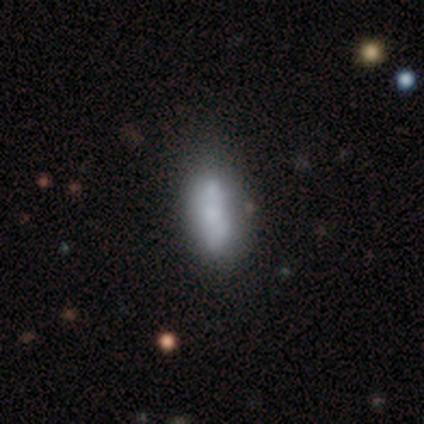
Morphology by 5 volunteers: A smooth galaxy with no disk features (40%, tied with featured or disk) that is in between round and cigar-shaped (50%, tied with cigar-shaped).

Vote fractions:
- Smooth or featured? smooth: 40% (tied) / featured or disk: 40% (tied) / star or artifact: 20%
- How rounded? in between: 50% (tied) / cigar-shaped: 50% (tied) / round: 0%
- Merging? none: 75% / major disturbance: 25% / minor disturbance: 0% / merger: 0%